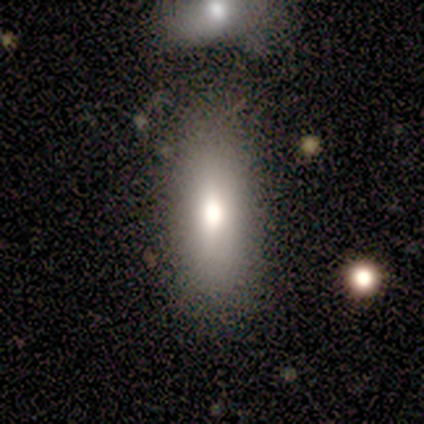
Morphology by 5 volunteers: A smooth galaxy with no disk features (60%) that is in between round and cigar-shaped (100%).

Vote fractions:
- Smooth or featured? smooth: 60% / featured or disk: 40% / star or artifact: 0%
- How rounded? in between: 100% / round: 0% / cigar-shaped: 0%
- Merging? none: 60% / minor disturbance: 20% / merger: 20% / major disturbance: 0%